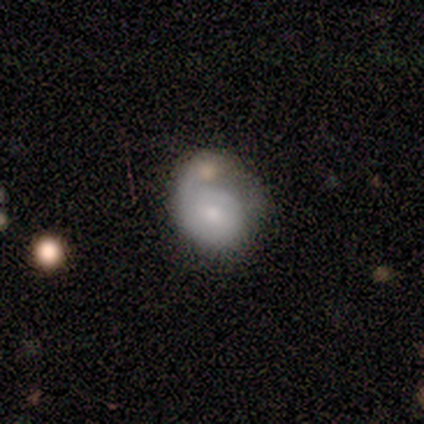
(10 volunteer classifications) A smooth galaxy with no disk features (50%) that is round (60%). Merging: minor disturbance (33%, tied with major disturbance).